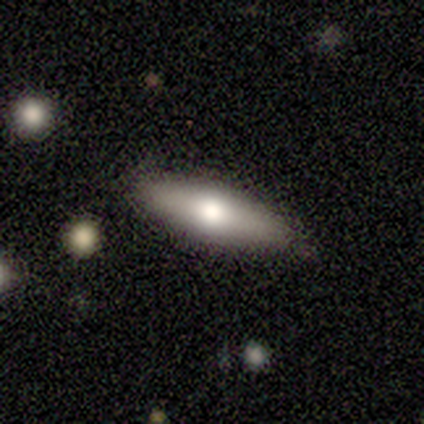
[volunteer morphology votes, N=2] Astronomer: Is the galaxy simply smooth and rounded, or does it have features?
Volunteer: smooth — 100%.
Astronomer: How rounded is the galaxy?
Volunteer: in between — 100%.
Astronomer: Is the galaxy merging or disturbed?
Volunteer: none — 100%.